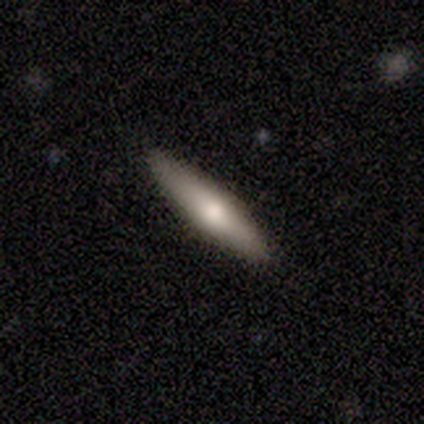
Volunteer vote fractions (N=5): smooth 80%, featured or disk 20%, star or artifact 0%. Down the decision tree: how rounded — cigar-shaped (75%); merging — none (100%).